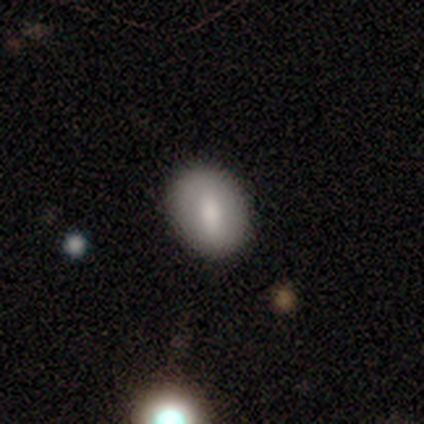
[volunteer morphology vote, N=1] A smooth galaxy with no disk features (100%) that is round (100%).

Vote fractions:
- Smooth or featured? smooth: 100% / featured or disk: 0% / star or artifact: 0%
- How rounded? round: 100% / in between: 0% / cigar-shaped: 0%
- Merging? none: 100% / minor disturbance: 0% / major disturbance: 0% / merger: 0%